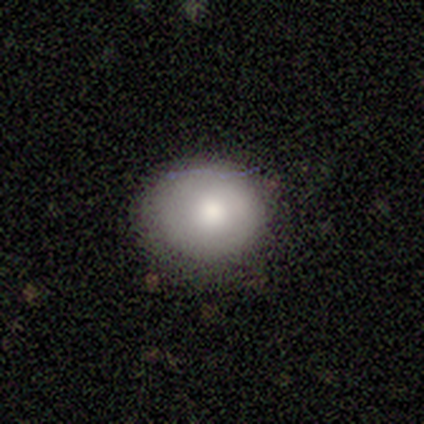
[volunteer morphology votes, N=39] type=smooth (74%); roundness=round (90%); merging=none (89%).